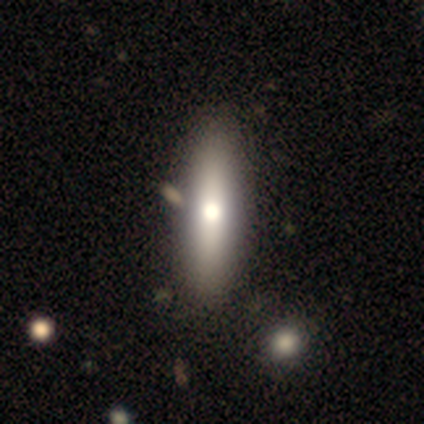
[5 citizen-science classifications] This is clearly a smooth galaxy (80%). How rounded: likely cigar-shaped (75%). Merging: marginally none (40%, tied with merger).